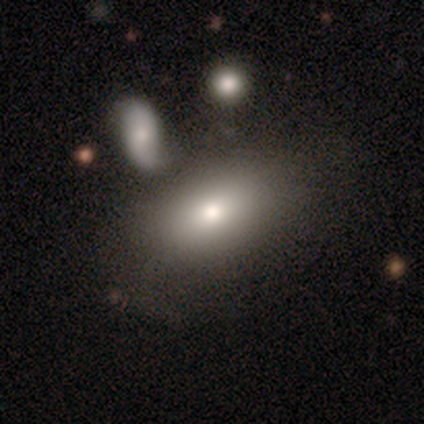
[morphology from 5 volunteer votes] Volunteers were most divided on "smooth or featured": smooth: 60%, featured or disk: 40%, star or artifact: 0%. More confident: how rounded — in between (67%); merging — none (60%).